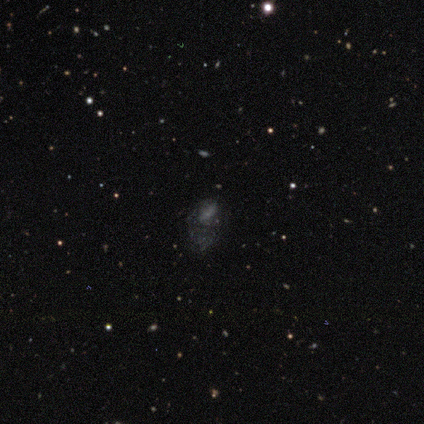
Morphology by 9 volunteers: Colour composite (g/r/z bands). It shows a featured or disk galaxy (44%) with no bar (100%), no spiral arms (100%) and no central bulge (100%). Merging: major disturbance (71%).